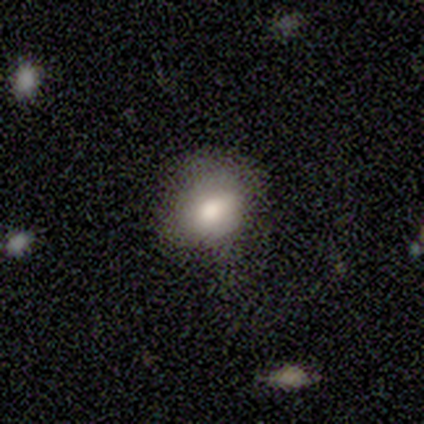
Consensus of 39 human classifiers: A smooth galaxy with no disk features (69%) that is round (52%).

Vote fractions:
- Smooth or featured? smooth: 69% / featured or disk: 21% / star or artifact: 10%
- How rounded? round: 52% / in between: 48% / cigar-shaped: 0%
- Merging? none: 66% / minor disturbance: 29% / major disturbance: 6% / merger: 0%